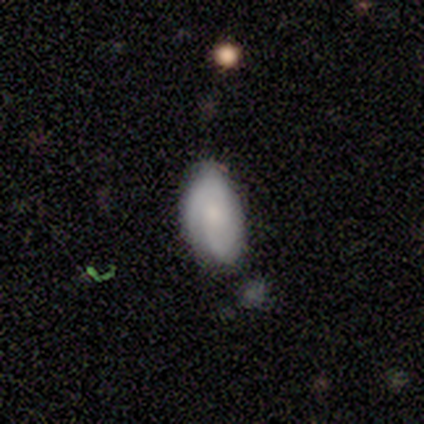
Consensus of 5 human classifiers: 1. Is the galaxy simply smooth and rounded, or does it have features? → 60% smooth, 40% featured or disk, 0% star or artifact.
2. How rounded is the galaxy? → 100% in between, 0% round, 0% cigar-shaped.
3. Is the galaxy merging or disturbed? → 60% none, 40% minor disturbance, 0% major disturbance, 0% merger.